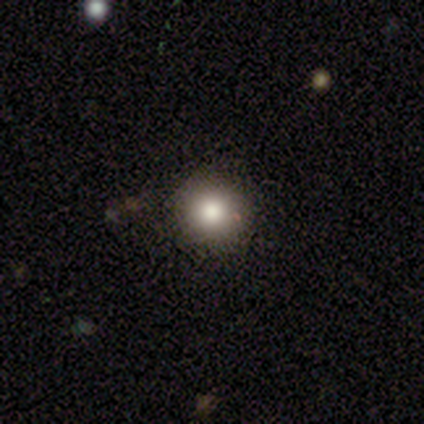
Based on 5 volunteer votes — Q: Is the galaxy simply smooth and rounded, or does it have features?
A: smooth — 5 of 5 (100%).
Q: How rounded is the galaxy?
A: round — 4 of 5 (80%).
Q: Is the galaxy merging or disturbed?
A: none — 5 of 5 (100%).